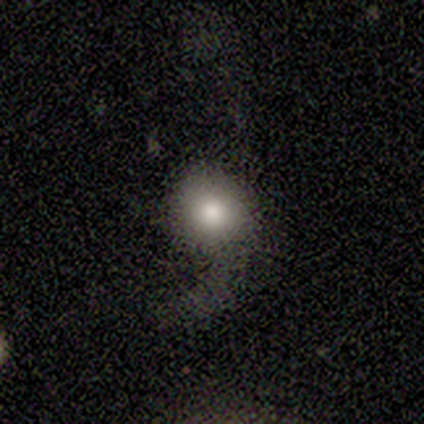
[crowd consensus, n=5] Smooth or featured? 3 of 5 (60%) said smooth. How rounded? 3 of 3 (100%) said round. Merging? 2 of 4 (50%) said major disturbance.